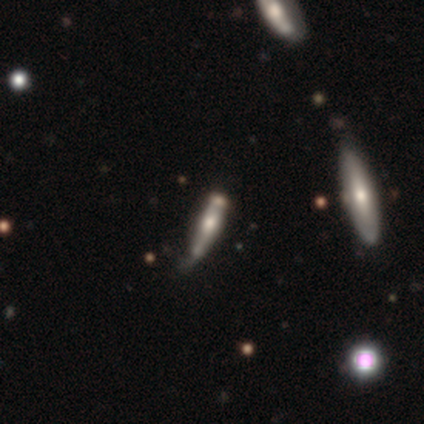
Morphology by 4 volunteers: Q: Smooth or featured?
A: featured or disk (75%); runner-up: smooth (25%)
Q: Edge-on disk?
A: yes (100%)
Q: Edge-on bulge?
A: rounded (67%); runner-up: none (33%)
Q: Merging?
A: minor disturbance (75%); runner-up: none (25%)